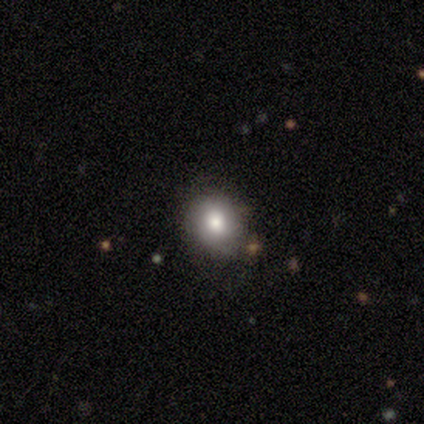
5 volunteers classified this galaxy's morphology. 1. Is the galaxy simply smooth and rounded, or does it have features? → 80% smooth, 20% featured or disk, 0% star or artifact.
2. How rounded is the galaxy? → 75% round, 25% in between, 0% cigar-shaped.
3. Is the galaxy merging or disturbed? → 80% none, 20% minor disturbance, 0% major disturbance, 0% merger.